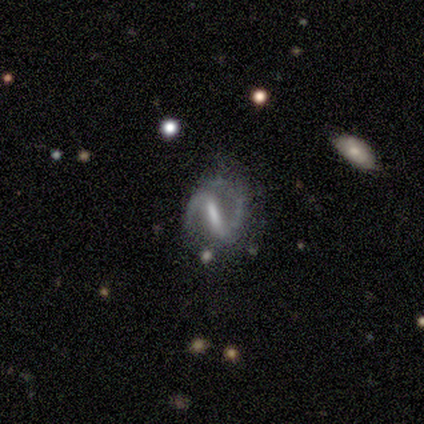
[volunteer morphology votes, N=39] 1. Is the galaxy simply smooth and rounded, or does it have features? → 85% featured or disk, 10% smooth, 5% star or artifact.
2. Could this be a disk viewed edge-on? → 97% no, 3% yes.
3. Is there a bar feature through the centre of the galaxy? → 75% strong, 19% weak, 6% no.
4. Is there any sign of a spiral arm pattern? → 97% yes, 3% no.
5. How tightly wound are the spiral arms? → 74% medium, 16% loose, 10% tight.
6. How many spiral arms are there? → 97% 2, 3% 1, 0% 3, 0% 4, 0% more than 4, 0% can't tell.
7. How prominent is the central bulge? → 44% none, 38% moderate, 12% small, 3% dominant, 3% large.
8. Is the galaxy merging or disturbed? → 62% none, 30% minor disturbance, 8% major disturbance, 0% merger.